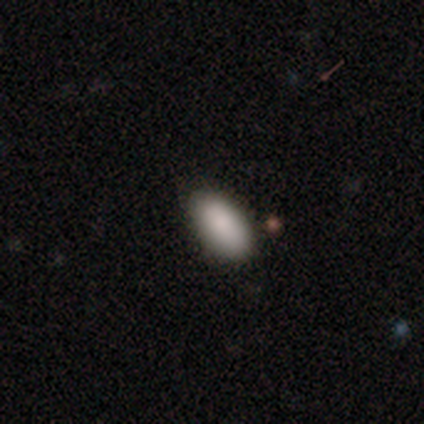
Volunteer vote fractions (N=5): Overall: smooth (100%). How rounded: in between (100%). Merging: none (100%).